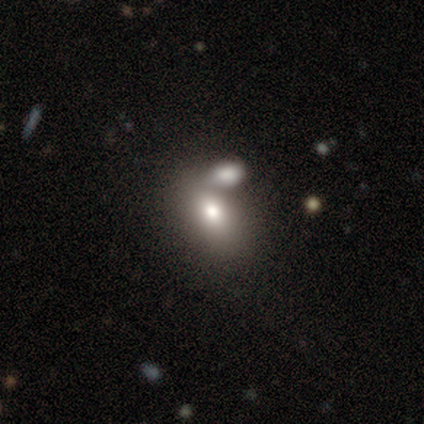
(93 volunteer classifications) A smooth galaxy with no disk features (71%) that is in between round and cigar-shaped (85%). Merging: merger (48%).